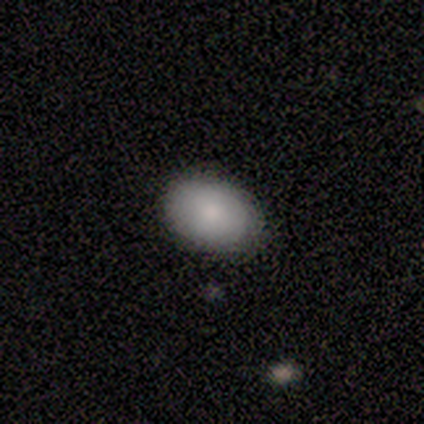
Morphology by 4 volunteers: Smooth or featured?
  - smooth: 100% *
  - featured or disk: 0%
  - star or artifact: 0%
How rounded?
  - in between: 75% *
  - round: 25%
  - cigar-shaped: 0%
Merging?
  - none: 100% *
  - minor disturbance: 0%
  - major disturbance: 0%
  - merger: 0%